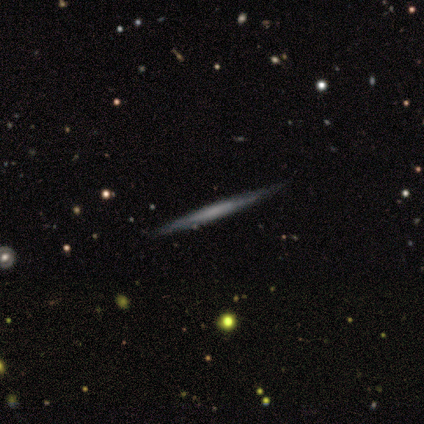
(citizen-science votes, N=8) A featured or disk galaxy (88%) viewed edge-on (100%) with no central bulge (71%).

Vote fractions:
- Smooth or featured? featured or disk: 88% / smooth: 12% / star or artifact: 0%
- Edge-on disk? yes: 100% / no: 0%
- Edge-on bulge? none: 71% / rounded: 29% / boxy: 0%
- Merging? none: 88% / major disturbance: 12% / minor disturbance: 0% / merger: 0%